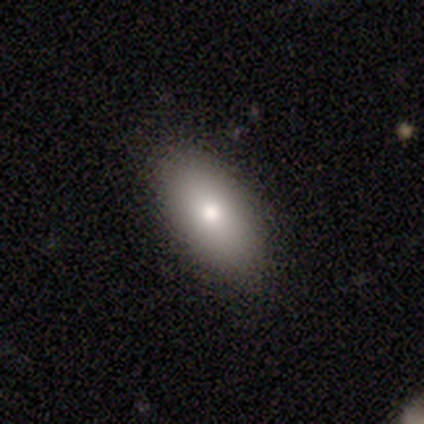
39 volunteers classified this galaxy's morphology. Volunteers were most divided on "smooth or featured": smooth: 85%, star or artifact: 10%, featured or disk: 5%. More confident: merging — none (94%); how rounded — in between (91%).